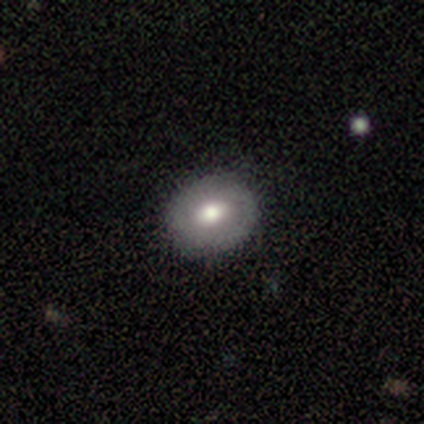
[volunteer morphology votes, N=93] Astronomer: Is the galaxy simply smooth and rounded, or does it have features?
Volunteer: smooth — 70%.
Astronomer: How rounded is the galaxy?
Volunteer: round — 63%.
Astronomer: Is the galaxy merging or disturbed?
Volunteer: none — 92%.